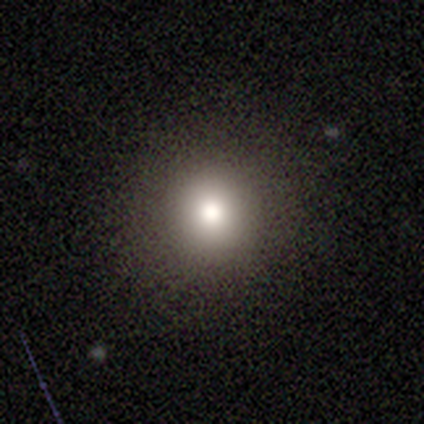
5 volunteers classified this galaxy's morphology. A smooth galaxy with no disk features (100%) that is round (100%). Merging: none (100%).